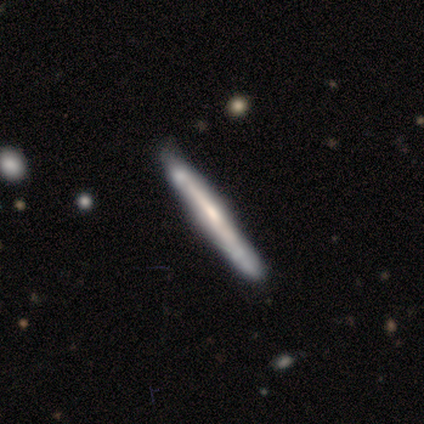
A featured or disk galaxy (63%) viewed edge-on (95%) with no central bulge (50%). Merging: none (78%).